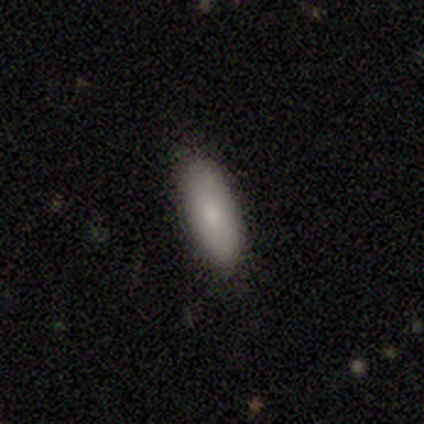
Smooth or featured? smooth (100%)
How rounded? in between (83%)
Merging? none (92%)